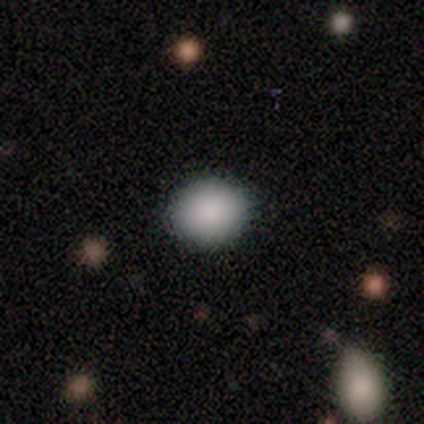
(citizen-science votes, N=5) Smooth or featured? smooth (60%)
How rounded? round (67%)
Merging? none (100%)